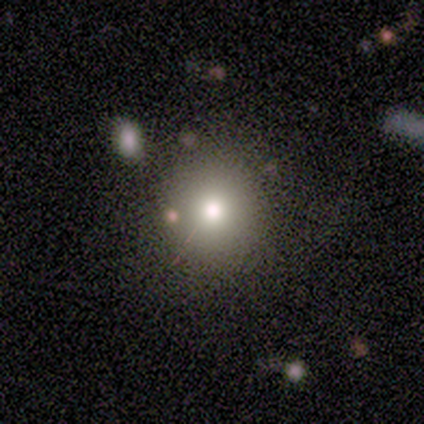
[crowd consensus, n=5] smooth-or-featured: smooth: 60% | featured or disk: 20% | star or artifact: 20%
  how-rounded: round: 100% | in between: 0% | cigar-shaped: 0%
  merging: none: 100% | minor disturbance: 0% | major disturbance: 0% | merger: 0%